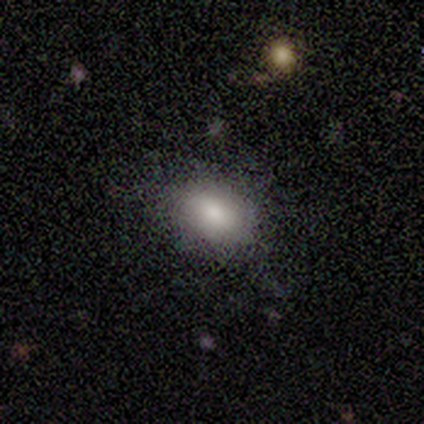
Q: Smooth or featured?
A: smooth (67%); runner-up: featured or disk (33%)
Q: How rounded?
A: round (50%); tied with: in between (50%)
Q: Merging?
A: none (67%); runner-up: minor disturbance (33%)